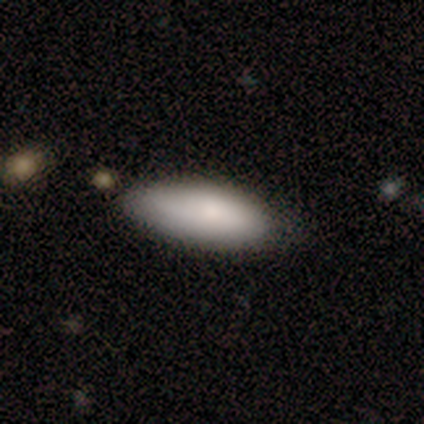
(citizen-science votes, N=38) A smooth galaxy with no disk features (89%) that is in between round and cigar-shaped (85%). Merging: none (68%).